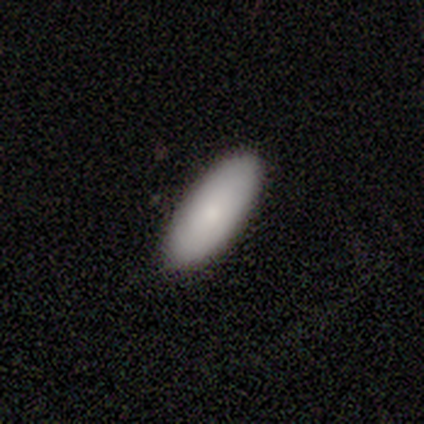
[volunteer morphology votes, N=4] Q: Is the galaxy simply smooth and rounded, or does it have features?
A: smooth — 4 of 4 (100%).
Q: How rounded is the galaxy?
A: in between — 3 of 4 (75%).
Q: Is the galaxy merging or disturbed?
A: none — 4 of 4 (100%).